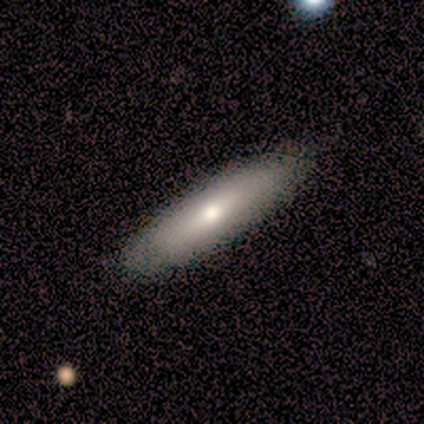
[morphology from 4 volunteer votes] Smooth or featured: smooth — 50% (tied with featured or disk — 50%)
How rounded: round — 50% (tied with cigar-shaped — 50%)
Merging: minor disturbance — 75% (none — 25%)